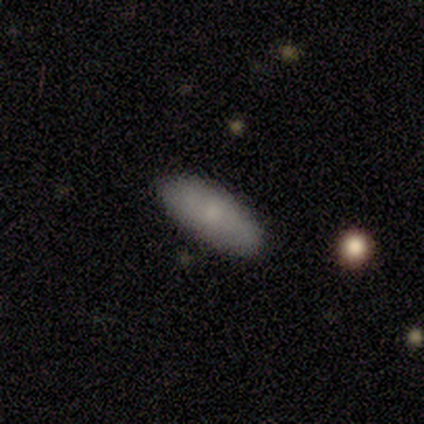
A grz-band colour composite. It shows a smooth galaxy with no disk features (60%) that is in between round and cigar-shaped (100%). Merging: none (100%).